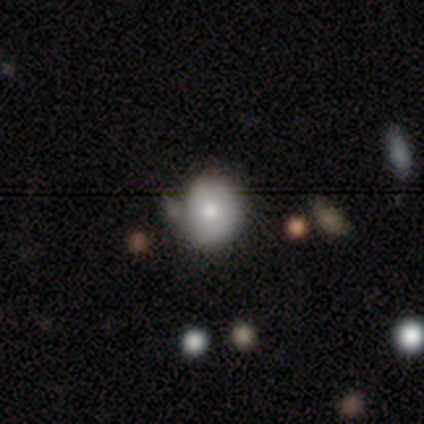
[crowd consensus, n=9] smooth-or-featured: smooth: 89% | featured or disk: 11% | star or artifact: 0%
  how-rounded: round: 88% | in between: 12% | cigar-shaped: 0%
  merging: none: 78% | minor disturbance: 22% | major disturbance: 0% | merger: 0%